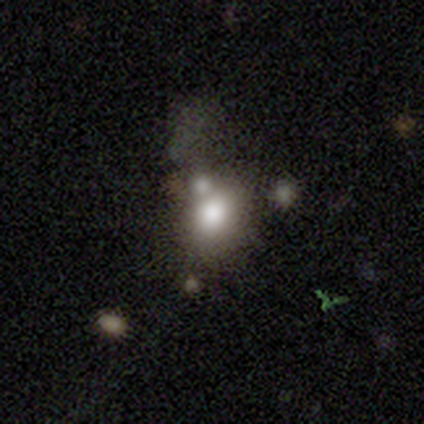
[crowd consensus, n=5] A smooth galaxy with no disk features (80%) that is round (50%, tied with in between). Merging: merger (50%).